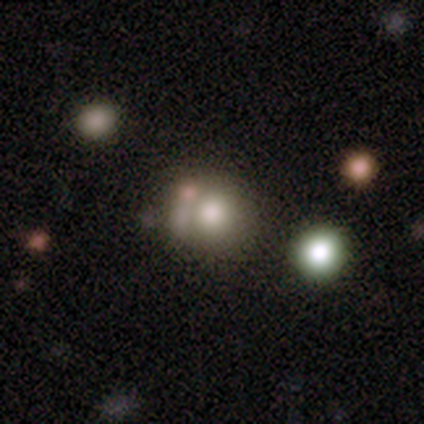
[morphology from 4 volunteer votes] type=star or artifact (50%).